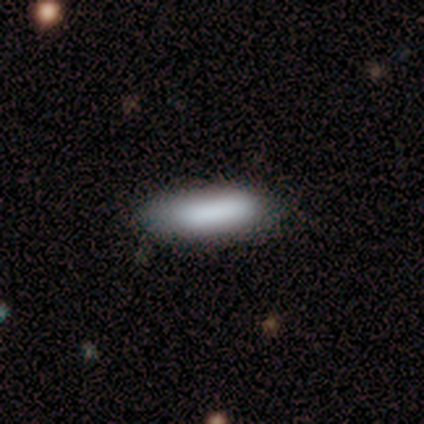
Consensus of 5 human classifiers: Morphology: type=smooth (80%); roundness=in between (75%); merging=none (100%).